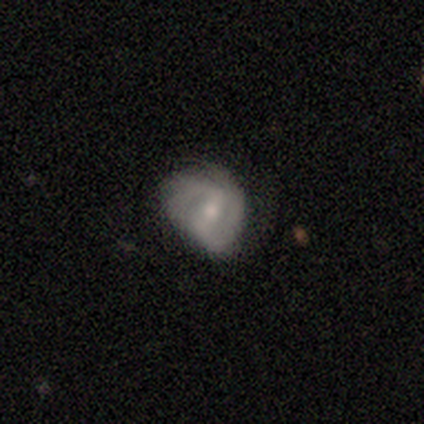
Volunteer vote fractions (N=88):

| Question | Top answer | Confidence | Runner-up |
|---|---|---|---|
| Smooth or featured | featured or disk | 68% | smooth (26%) |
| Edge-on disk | no | 92% | yes (8%) |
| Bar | weak | 60% | no (24%) |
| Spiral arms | yes | 87% | no (13%) |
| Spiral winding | tight | 54% | medium (23%) |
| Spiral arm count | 2 | 67% | can't tell (23%) |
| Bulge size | small | 64% | moderate (27%) |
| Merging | none | 53% | minor disturbance (31%) |